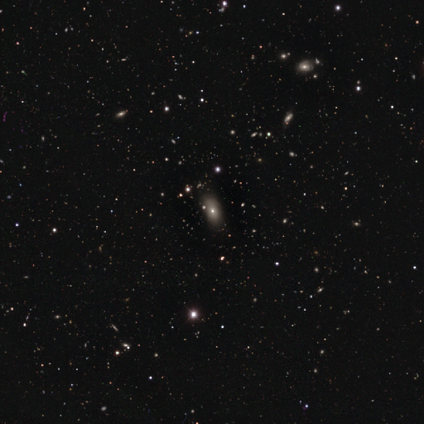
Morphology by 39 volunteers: smooth_or_featured: smooth (p=0.54) [alt: star or artifact p=0.36]
how_rounded: in between (p=0.90) [alt: round p=0.05]
merging: none (p=0.72) [alt: minor disturbance p=0.24]